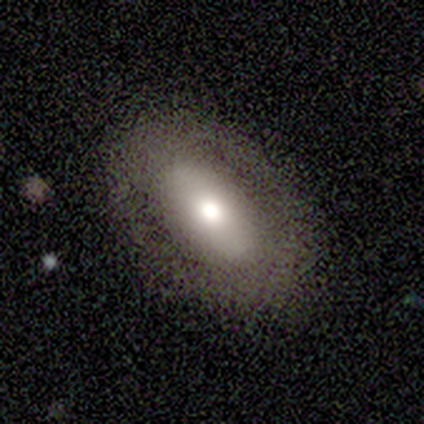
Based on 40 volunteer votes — Smooth or featured: smooth — 60% (featured or disk — 38%)
How rounded: in between — 83% (round — 8%)
Merging: none — 92% (minor disturbance — 8%)